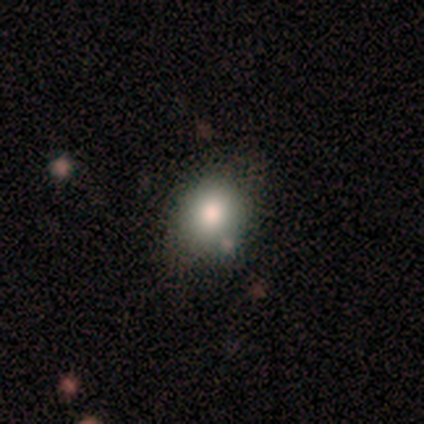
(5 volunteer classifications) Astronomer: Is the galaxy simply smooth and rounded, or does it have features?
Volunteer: smooth — 100%.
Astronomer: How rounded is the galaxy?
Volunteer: round — 60% (runner-up: in between, 40%).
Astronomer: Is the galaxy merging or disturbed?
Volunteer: none — 80%.